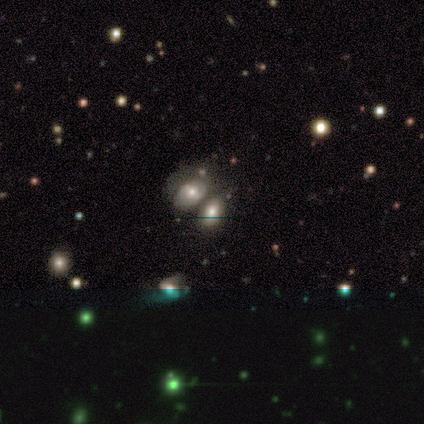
Morphology: type=smooth (33%, tied with featured or disk and star or artifact); roundness=in between (100%); merging=none (33%, tied with merger).